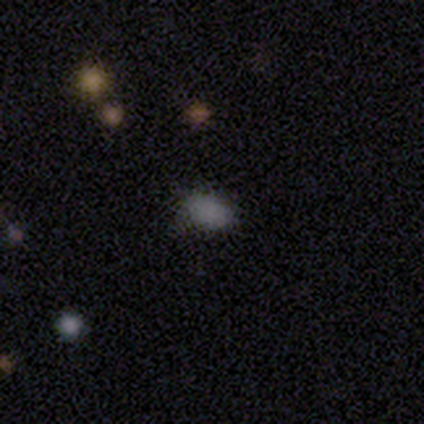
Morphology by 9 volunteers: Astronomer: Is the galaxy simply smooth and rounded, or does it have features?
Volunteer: smooth — 100%.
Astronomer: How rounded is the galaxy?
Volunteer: in between — 67%.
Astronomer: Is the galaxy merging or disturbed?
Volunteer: none — 67%.